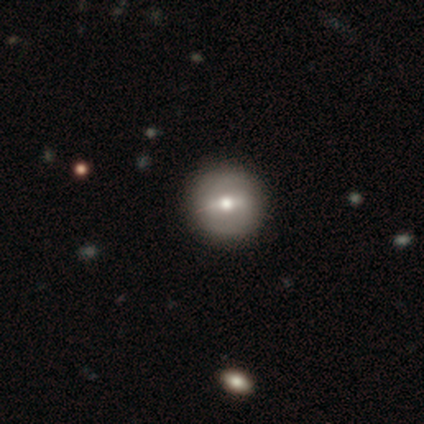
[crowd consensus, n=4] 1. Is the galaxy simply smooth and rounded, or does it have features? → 50% smooth, 25% featured or disk, 25% star or artifact.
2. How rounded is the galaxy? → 100% round, 0% in between, 0% cigar-shaped.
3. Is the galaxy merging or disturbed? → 100% none, 0% minor disturbance, 0% major disturbance, 0% merger.